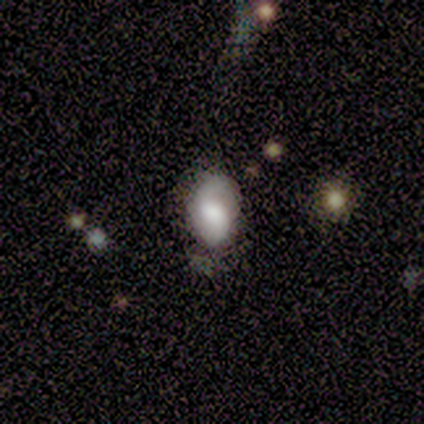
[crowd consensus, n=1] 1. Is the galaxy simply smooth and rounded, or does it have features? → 100% featured or disk, 0% smooth, 0% star or artifact.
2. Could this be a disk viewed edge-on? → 100% no, 0% yes.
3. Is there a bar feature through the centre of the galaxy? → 100% weak, 0% strong, 0% no.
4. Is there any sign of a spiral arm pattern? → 100% yes, 0% no.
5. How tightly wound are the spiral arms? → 100% loose, 0% tight, 0% medium.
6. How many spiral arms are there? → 100% 2, 0% 1, 0% 3, 0% 4, 0% more than 4, 0% can't tell.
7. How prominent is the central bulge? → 100% small, 0% dominant, 0% large, 0% moderate, 0% none.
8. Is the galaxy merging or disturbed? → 100% none, 0% minor disturbance, 0% major disturbance, 0% merger.